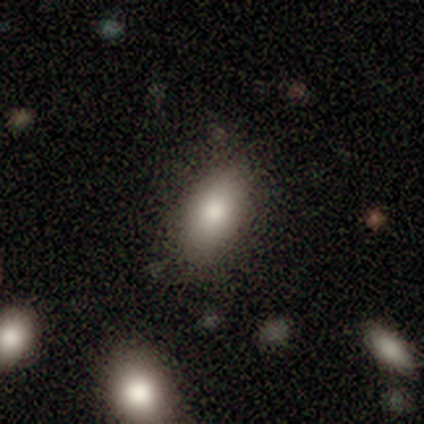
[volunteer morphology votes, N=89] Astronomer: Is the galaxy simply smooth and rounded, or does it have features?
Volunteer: smooth — 85%.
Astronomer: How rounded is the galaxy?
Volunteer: in between — 93%.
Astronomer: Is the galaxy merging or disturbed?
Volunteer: none — 80%.